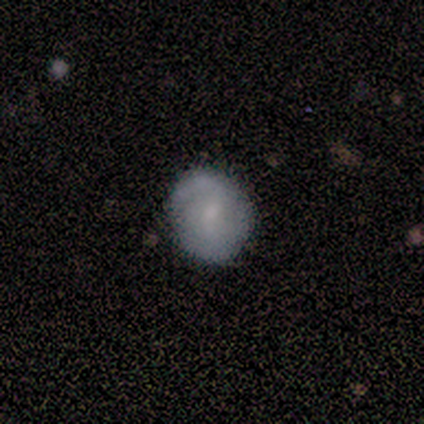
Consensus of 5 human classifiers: Morphology: type=smooth (60%); roundness=round (67%); merging=none (60%).